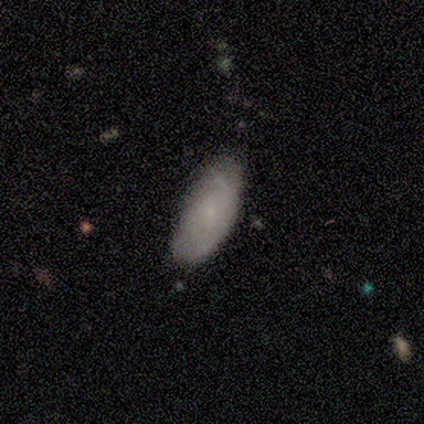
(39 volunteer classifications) smooth-or-featured: smooth: 64% | featured or disk: 31% | star or artifact: 5%
  how-rounded: in between: 92% | round: 4% | cigar-shaped: 4%
  merging: none: 54% | minor disturbance: 32% | major disturbance: 14% | merger: 0%